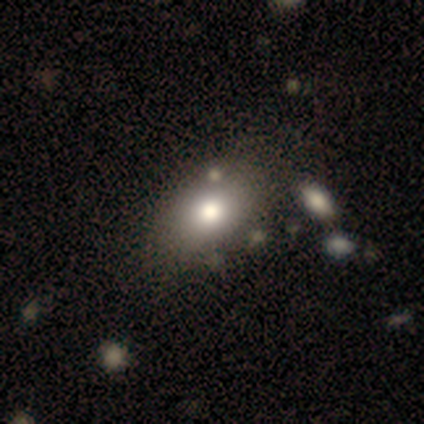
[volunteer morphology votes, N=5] smooth_or_featured: smooth (p=0.60) [alt: star or artifact p=0.40]
how_rounded: in between (p=1.00)
merging: none (p=1.00)